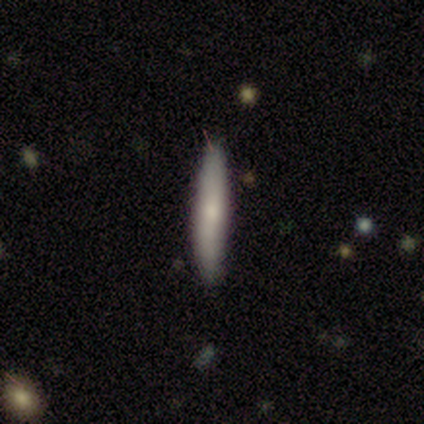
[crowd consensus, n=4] A smooth galaxy with no disk features (50%) that is cigar-shaped (100%). Merging: none (67%).